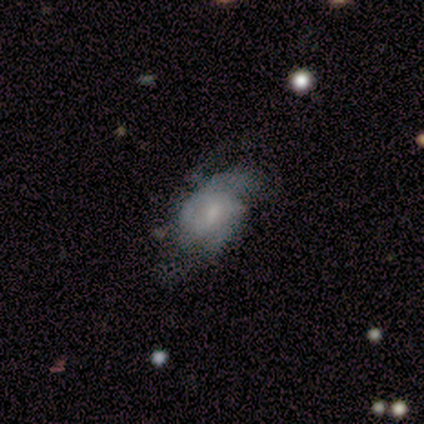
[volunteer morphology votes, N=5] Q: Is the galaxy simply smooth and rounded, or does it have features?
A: featured or disk — 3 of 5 (60%).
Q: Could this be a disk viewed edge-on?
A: no — 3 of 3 (100%).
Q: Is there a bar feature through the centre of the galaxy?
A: weak — 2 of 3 (67%).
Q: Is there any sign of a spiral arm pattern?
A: yes — 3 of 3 (100%).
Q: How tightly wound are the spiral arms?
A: loose — 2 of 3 (67%).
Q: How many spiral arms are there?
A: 2 — 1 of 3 (33%, tied with 3 and 4).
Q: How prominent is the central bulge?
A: moderate — 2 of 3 (67%).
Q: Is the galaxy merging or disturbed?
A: none — 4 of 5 (80%).